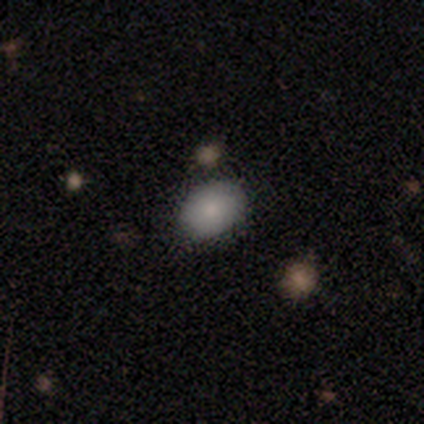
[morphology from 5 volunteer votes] A smooth galaxy with no disk features (80%) that is in between round and cigar-shaped (100%).

Vote fractions:
- Smooth or featured? smooth: 80% / star or artifact: 20% / featured or disk: 0%
- How rounded? in between: 100% / round: 0% / cigar-shaped: 0%
- Merging? none: 100% / minor disturbance: 0% / major disturbance: 0% / merger: 0%